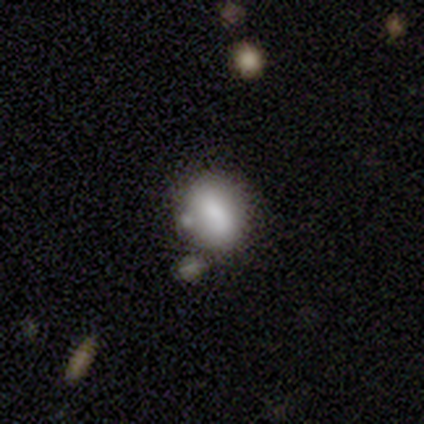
Smooth or featured: smooth — 80% (featured or disk — 20%)
How rounded: round — 75% (in between — 25%)
Merging: none — 60% (minor disturbance — 20%)